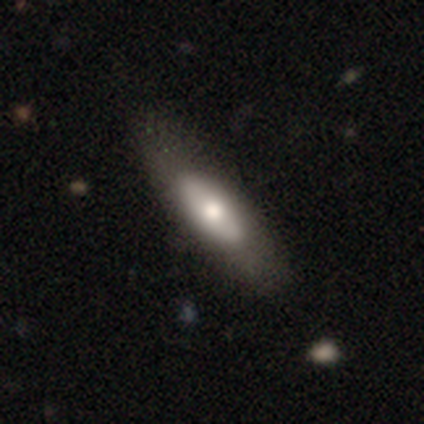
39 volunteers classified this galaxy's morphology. Q: Smooth or featured?
A: smooth (54%); runner-up: featured or disk (41%)
Q: How rounded?
A: in between (57%); runner-up: cigar-shaped (38%)
Q: Merging?
A: none (54%); runner-up: major disturbance (8%)